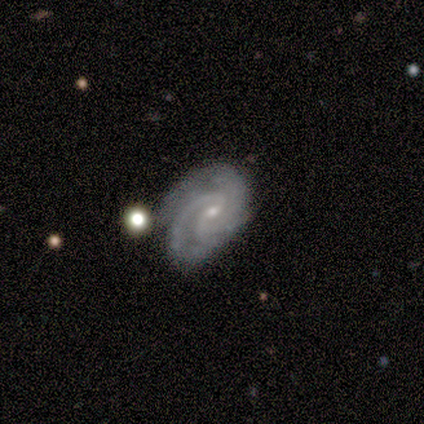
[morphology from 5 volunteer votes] This is clearly a featured or disk galaxy (80%). It is clearly not viewed edge-on (100%). Bar: possibly weak (50%, tied with no). Spiral arm pattern: clearly yes (100%). Spiral arm count: likely 3 (75%). Spiral winding: possibly tight (50%). Central bulge: possibly moderate (50%, tied with small). Merging: likely none (60%).